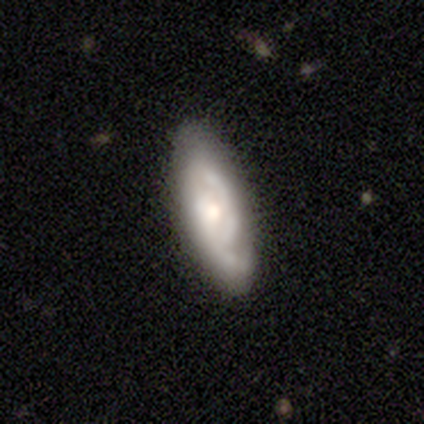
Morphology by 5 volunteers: Overall: featured or disk (80%). Edge-on disk: no (75%). Bar: no (67%; weak 33%). Spiral arms: yes (100%). Spiral arm count: 1 (33%, tied with 2 and can't tell). Spiral winding: medium (67%; loose 33%). Bulge size: moderate (67%; small 33%). Merging: none (80%).